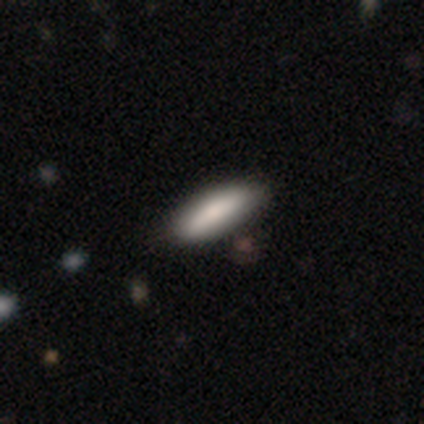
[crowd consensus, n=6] A smooth galaxy with no disk features (100%) that is cigar-shaped (67%).

Vote fractions:
- Smooth or featured? smooth: 100% / featured or disk: 0% / star or artifact: 0%
- How rounded? cigar-shaped: 67% / in between: 33% / round: 0%
- Merging? none: 83% / merger: 17% / minor disturbance: 0% / major disturbance: 0%